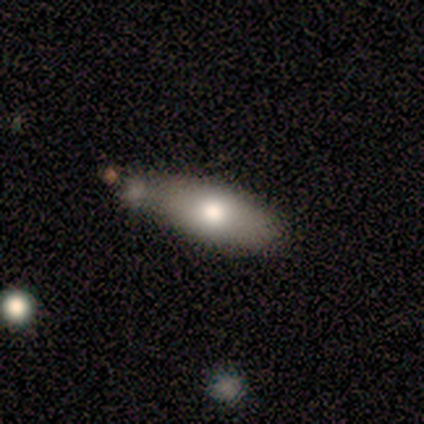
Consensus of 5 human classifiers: Volunteers were most divided on "merging": minor disturbance: 40%, none: 20%, major disturbance: 20%, merger: 20%. More confident: smooth or featured — smooth (80%); how rounded — in between (75%).